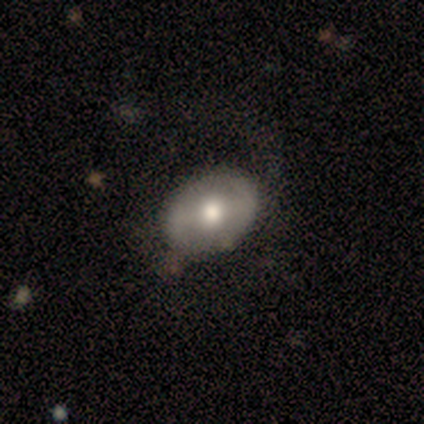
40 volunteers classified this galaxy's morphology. Volunteers were most divided on "bar": weak: 45%, no: 35%, strong: 20%. More confident: edge-on disk — no (91%); merging — none (87%); bulge size — moderate (70%); spiral arms — no (65%); smooth or featured — featured or disk (55%).